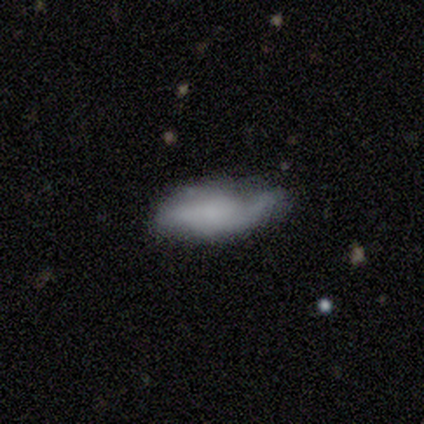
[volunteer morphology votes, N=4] Overall: featured or disk (50%, tied with star or artifact). Edge-on disk: yes (50%, tied with no). Edge-on bulge: none (100%). Merging: none (50%, tied with minor disturbance).